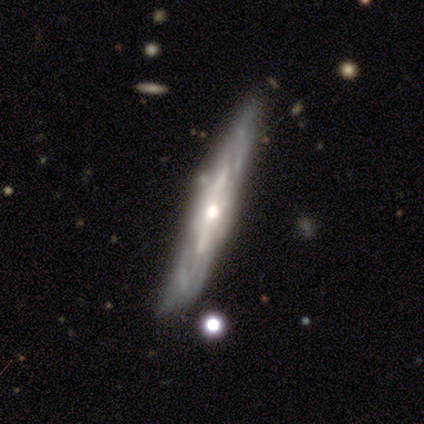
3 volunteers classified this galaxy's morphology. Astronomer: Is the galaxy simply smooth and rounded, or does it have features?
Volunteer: featured or disk — 100%.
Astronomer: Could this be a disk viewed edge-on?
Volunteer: yes — 67%.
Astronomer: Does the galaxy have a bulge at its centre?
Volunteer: rounded — 100%.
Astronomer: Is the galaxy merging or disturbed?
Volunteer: none — 67%.